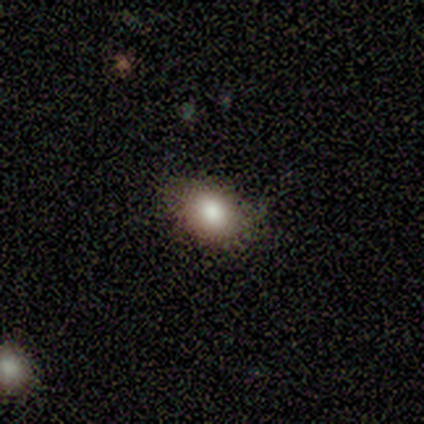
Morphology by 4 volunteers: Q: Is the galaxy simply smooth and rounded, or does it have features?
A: smooth — 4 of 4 (100%).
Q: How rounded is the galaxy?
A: in between — 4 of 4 (100%).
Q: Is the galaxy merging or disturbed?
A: none — 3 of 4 (75%).